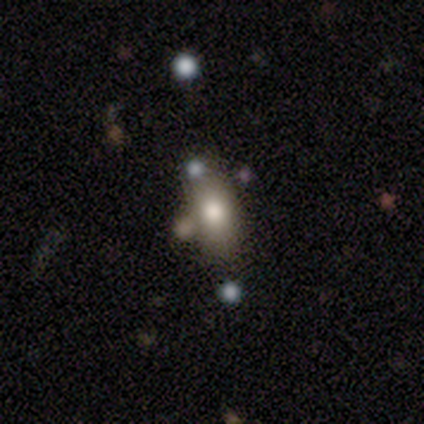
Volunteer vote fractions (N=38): smooth-or-featured: smooth: 63% | featured or disk: 18% | star or artifact: 18%
  how-rounded: in between: 88% | cigar-shaped: 12% | round: 0%
  merging: none: 58% | merger: 23% | minor disturbance: 16% | major disturbance: 3%